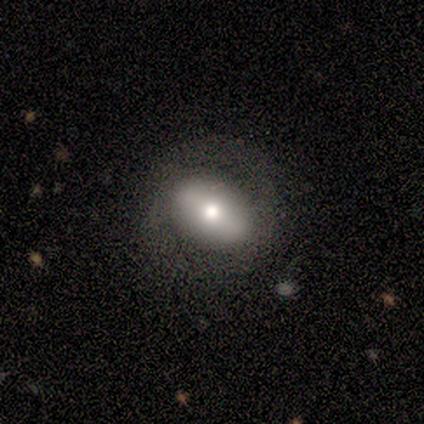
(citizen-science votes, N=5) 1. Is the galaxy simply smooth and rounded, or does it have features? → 60% smooth, 40% featured or disk, 0% star or artifact.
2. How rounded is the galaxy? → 67% in between, 33% round, 0% cigar-shaped.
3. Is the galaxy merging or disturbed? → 80% none, 20% minor disturbance, 0% major disturbance, 0% merger.